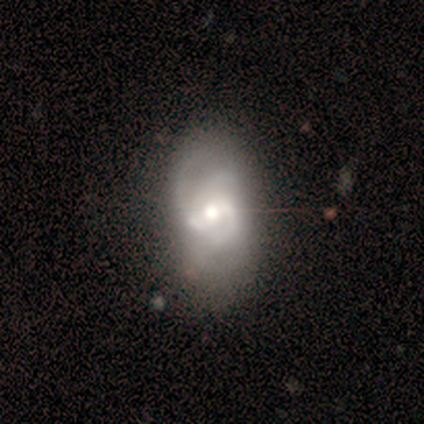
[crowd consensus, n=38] Morphology: type=featured or disk (82%); edge-on=no (100%); bar=weak (52%); spiral arms=yes (94%); winding=medium (55%); arm count=3 (59%); bulge=moderate (81%); merging=none (49%).